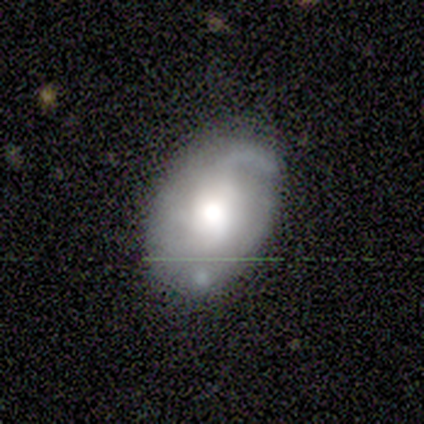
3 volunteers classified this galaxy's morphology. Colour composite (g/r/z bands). It shows a featured or disk galaxy (67%) with no bar (100%), 1 (50%, tied with 3) tight (50%, tied with medium) spiral arms (100%) and a large central bulge (50%, tied with moderate). Merging: none (100%).